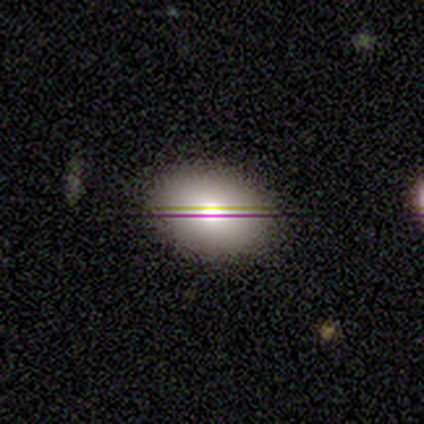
Smooth or featured? 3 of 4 (75%) said smooth. How rounded? 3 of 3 (100%) said in between. Merging? 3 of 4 (75%) said none.